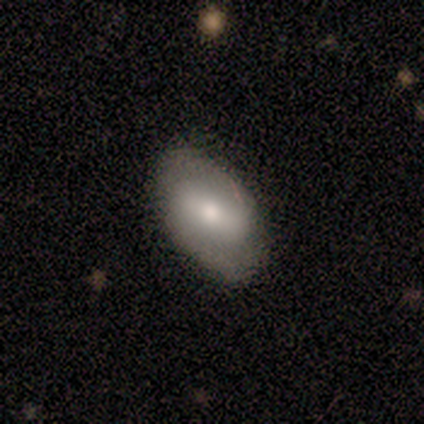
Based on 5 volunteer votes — Morphology: type=featured or disk (80%); edge-on=no (75%); bar=strong (67%); spiral arms=yes (67%); winding=tight (100%); arm count=2 (100%); bulge=dominant (33%, tied with moderate and small); merging=none (80%).